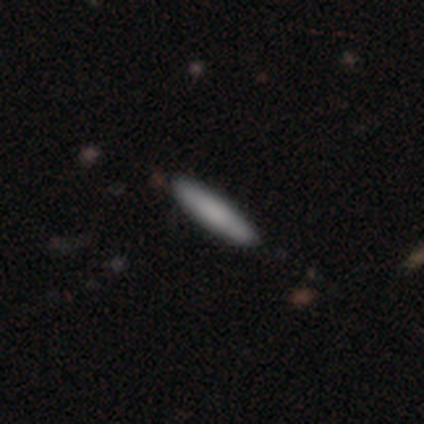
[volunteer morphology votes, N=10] smooth_or_featured: smooth (p=0.50) [alt: featured or disk p=0.30]
how_rounded: cigar-shaped (p=1.00)
merging: none (p=0.88) [alt: minor disturbance p=0.12]